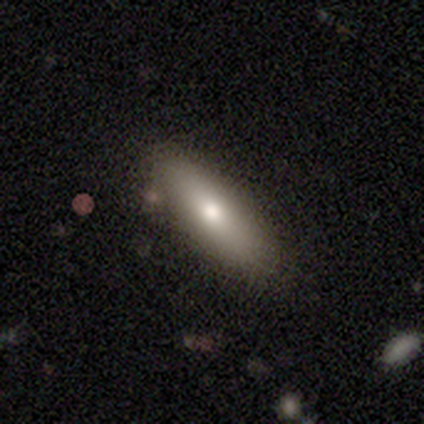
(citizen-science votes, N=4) A smooth galaxy with no disk features (50%, tied with featured or disk) that is in between round and cigar-shaped (50%, tied with cigar-shaped).

Vote fractions:
- Smooth or featured? smooth: 50% (tied) / featured or disk: 50% (tied) / star or artifact: 0%
- How rounded? in between: 50% (tied) / cigar-shaped: 50% (tied) / round: 0%
- Merging? minor disturbance: 50% / none: 25% / major disturbance: 25% / merger: 0%